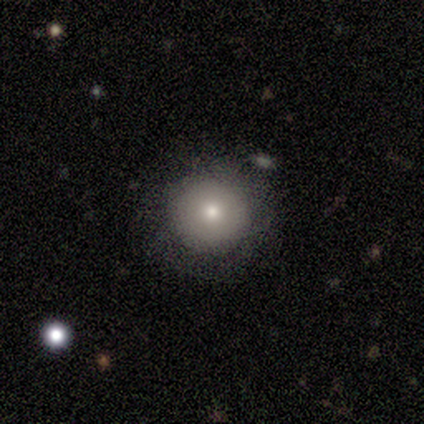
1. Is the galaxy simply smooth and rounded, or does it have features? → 80% smooth, 20% featured or disk, 0% star or artifact.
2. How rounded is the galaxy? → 100% round, 0% in between, 0% cigar-shaped.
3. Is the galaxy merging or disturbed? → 80% none, 20% minor disturbance, 0% major disturbance, 0% merger.